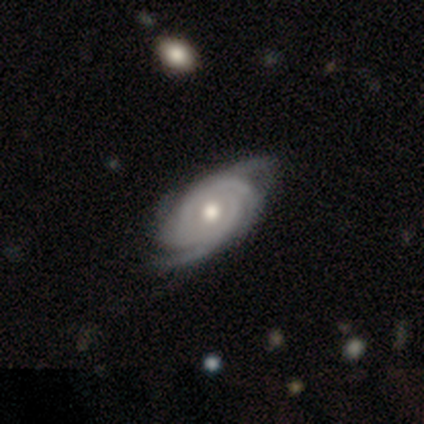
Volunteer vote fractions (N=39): Smooth or featured: featured or disk — 100%
Edge-on disk: no — 95% (yes — 5%)
Bar: no — 89% (weak — 8%)
Spiral arms: yes — 100%
Spiral winding: tight — 65% (medium — 27%)
Spiral arm count: 4 — 46% (2 — 19%)
Bulge size: moderate — 86% (small — 8%)
Merging: none — 41% (minor disturbance — 13%)